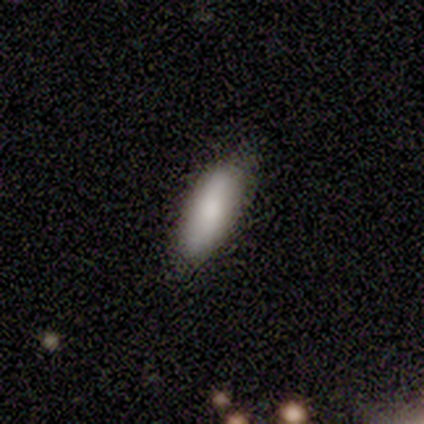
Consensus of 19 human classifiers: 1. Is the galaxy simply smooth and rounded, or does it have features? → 84% smooth, 11% featured or disk, 5% star or artifact.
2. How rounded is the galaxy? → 62% in between, 38% cigar-shaped, 0% round.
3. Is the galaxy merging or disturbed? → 89% none, 11% minor disturbance, 0% major disturbance, 0% merger.